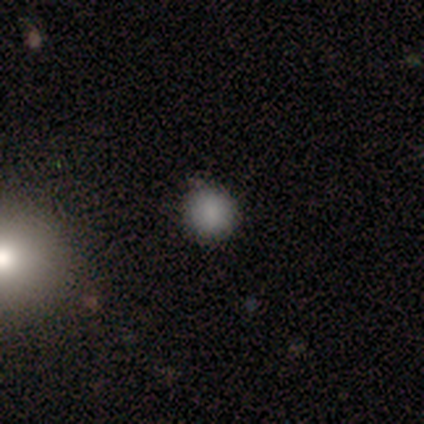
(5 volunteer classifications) This is likely a smooth galaxy (60%). How rounded: clearly round (100%). Merging: clearly none (100%).